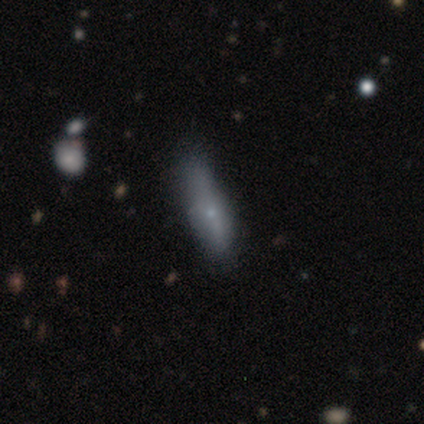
A smooth galaxy with no disk features (54%) that is cigar-shaped (75%). Merging: none (76%).